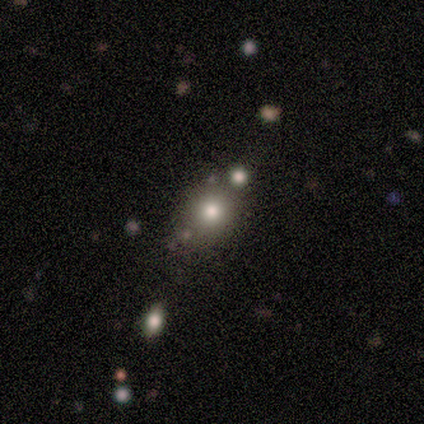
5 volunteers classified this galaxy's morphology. Smooth or featured: smooth — 40% (tied with featured or disk — 40%)
How rounded: round — 50% (tied with in between — 50%)
Merging: none — 75% (merger — 25%)